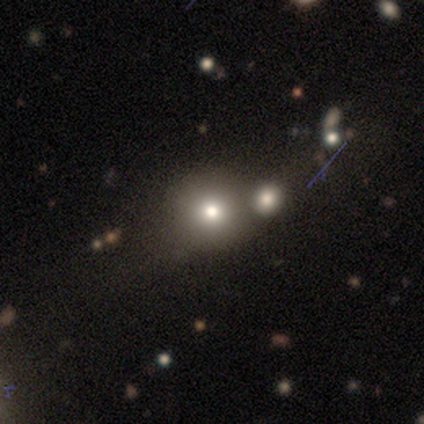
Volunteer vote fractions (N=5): Smooth or featured: smooth — 60% (star or artifact — 40%)
How rounded: round — 100%
Merging: none — 67% (merger — 33%)